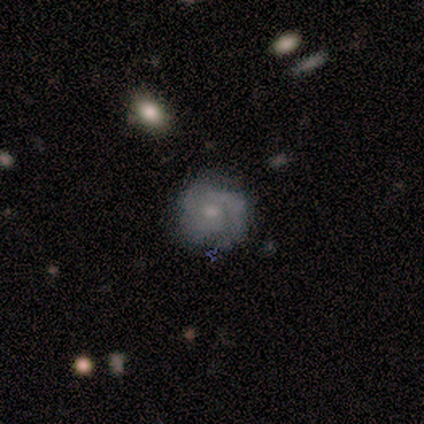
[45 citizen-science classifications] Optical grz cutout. It shows a featured or disk galaxy (64%) with no bar (82%), 2 (50%) tight (58%) spiral arms (86%) and a small central bulge (54%). Merging: none (67%).